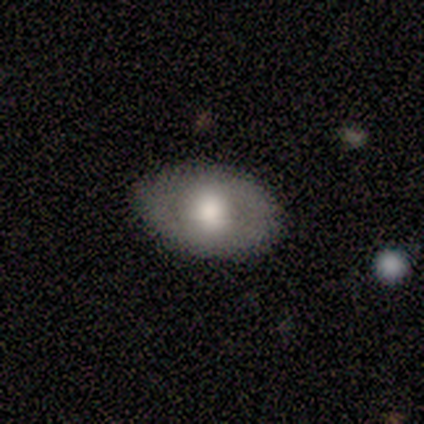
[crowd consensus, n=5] Overall: smooth (40%, tied with featured or disk). How rounded: in between (100%). Merging: none (100%).